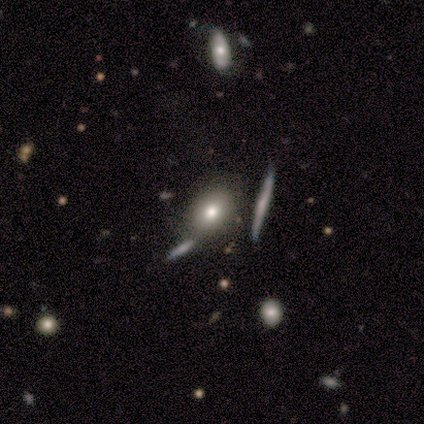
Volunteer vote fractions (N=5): smooth 40% (tied), star or artifact 40% (tied), featured or disk 20%. Down the decision tree: how rounded — round (50%, tied with in between); merging — none (100%).